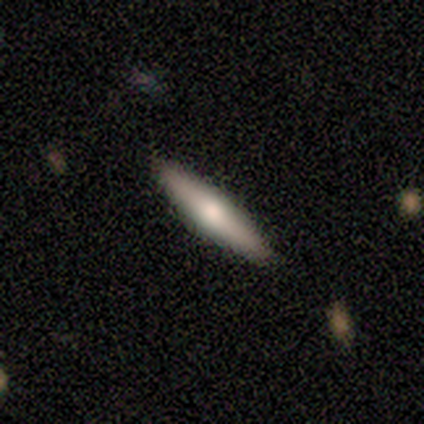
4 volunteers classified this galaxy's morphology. smooth_or_featured: smooth (p=0.50) [tied with: featured or disk p=0.50]
how_rounded: cigar-shaped (p=1.00)
merging: none (p=0.75) [alt: minor disturbance p=0.25]